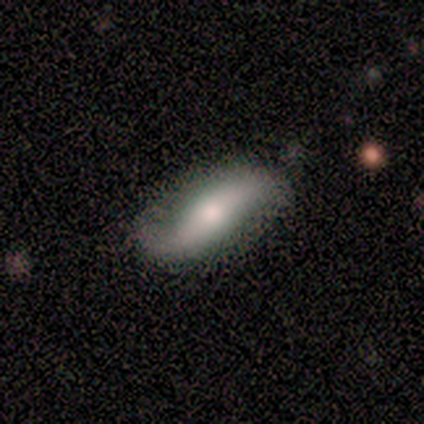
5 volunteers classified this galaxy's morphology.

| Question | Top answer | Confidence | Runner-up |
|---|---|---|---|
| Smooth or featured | smooth | 60% | featured or disk (40%) |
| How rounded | in between | 100% | — |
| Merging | none | 100% | — |